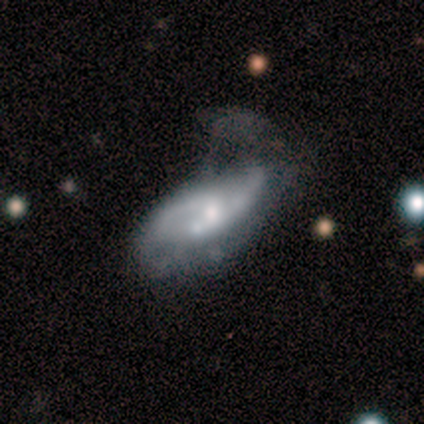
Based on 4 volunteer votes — Overall: featured or disk (100%). Edge-on disk: no (100%). Bar: strong (50%; weak 25%). Spiral arms: yes (75%). Spiral arm count: 2 (100%). Spiral winding: medium (67%; loose 33%). Bulge size: moderate (75%). Merging: none (25%, tied with minor disturbance, major disturbance and merger).